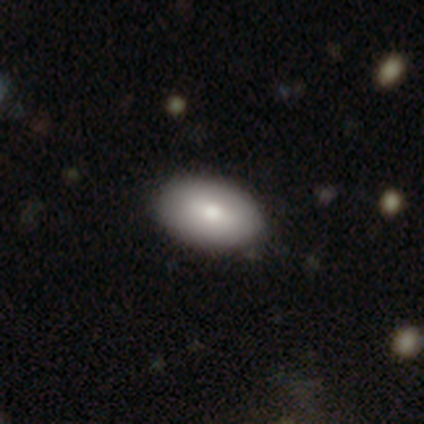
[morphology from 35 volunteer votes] A smooth galaxy with no disk features (83%) that is in between round and cigar-shaped (100%).

Vote fractions:
- Smooth or featured? smooth: 83% / featured or disk: 17% / star or artifact: 0%
- How rounded? in between: 100% / round: 0% / cigar-shaped: 0%
- Merging? none: 66% / minor disturbance: 9% / major disturbance: 0% / merger: 0%